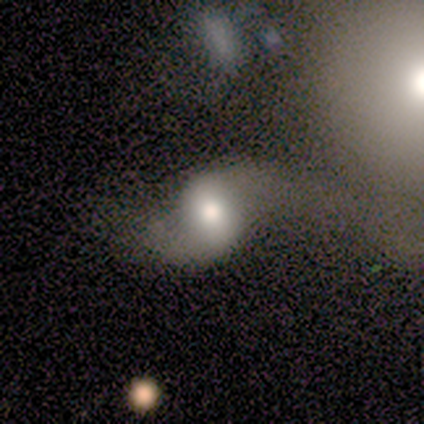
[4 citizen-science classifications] A featured or disk galaxy (75%) with a weak bar (67%), 2 (100%) loose (67%) spiral arms (100%) and a moderate central bulge (100%). Merging: none (75%).